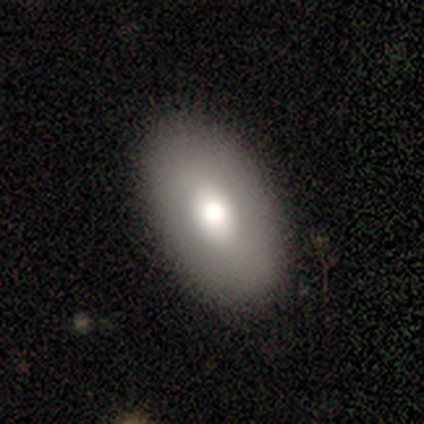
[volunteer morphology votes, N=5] This appears to be a smooth galaxy with no disk features (60%) that is in between round and cigar-shaped (100%). Merging: none (100%).